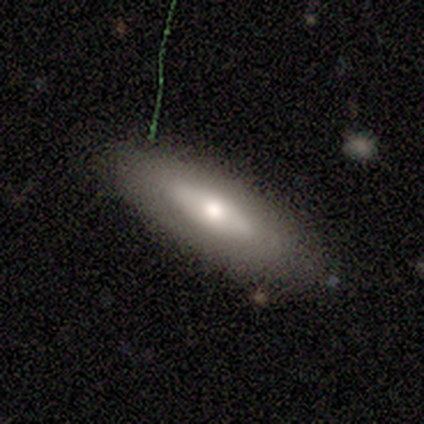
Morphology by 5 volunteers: A smooth galaxy with no disk features (80%) that is in between round and cigar-shaped (75%). Merging: minor disturbance (50%).